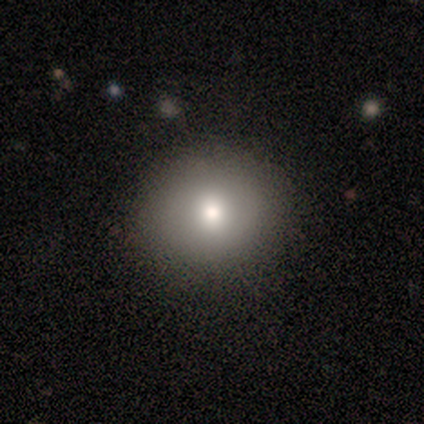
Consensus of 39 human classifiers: Q: Smooth or featured?
A: smooth (79%); runner-up: star or artifact (13%)
Q: How rounded?
A: round (87%); runner-up: in between (13%)
Q: Merging?
A: none (94%); runner-up: major disturbance (3%)